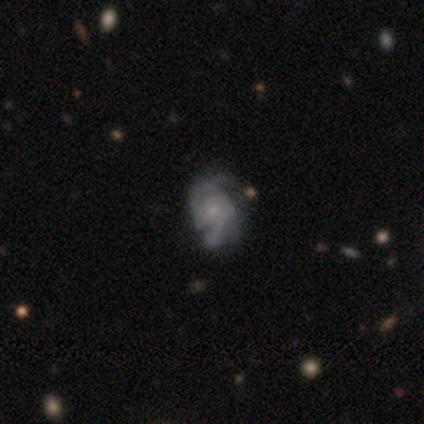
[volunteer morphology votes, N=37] Smooth or featured: featured or disk — 81% (smooth — 14%)
Edge-on disk: no — 100%
Bar: no — 73% (weak — 20%)
Spiral arms: yes — 93% (no — 7%)
Spiral winding: tight — 46% (medium — 43%)
Spiral arm count: 2 — 50% (can't tell — 29%)
Bulge size: small — 70% (moderate — 17%)
Merging: none — 49% (major disturbance — 26%)